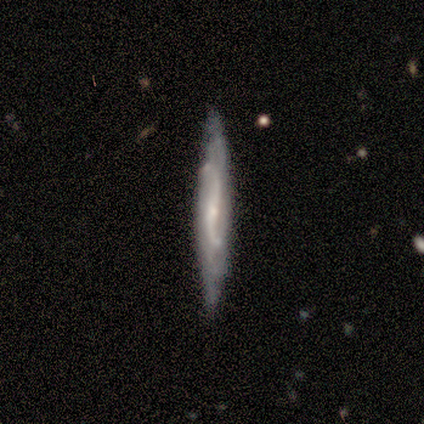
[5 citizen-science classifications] This is likely a featured or disk galaxy (60%). It is likely viewed edge-on (67%). Edge-on bulge: possibly boxy (50%, tied with none). Merging: clearly none (100%).